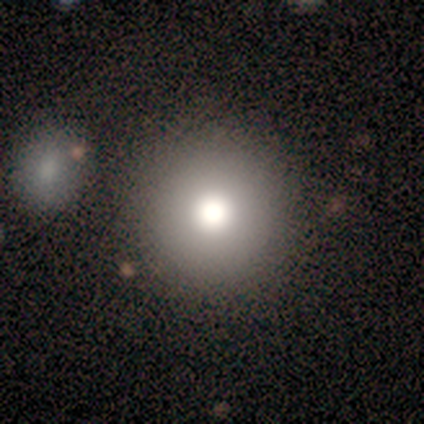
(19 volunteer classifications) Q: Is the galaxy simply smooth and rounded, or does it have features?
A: smooth — 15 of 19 (79%).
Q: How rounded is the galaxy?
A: round — 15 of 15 (100%).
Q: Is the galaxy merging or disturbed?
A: none — 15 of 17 (88%).